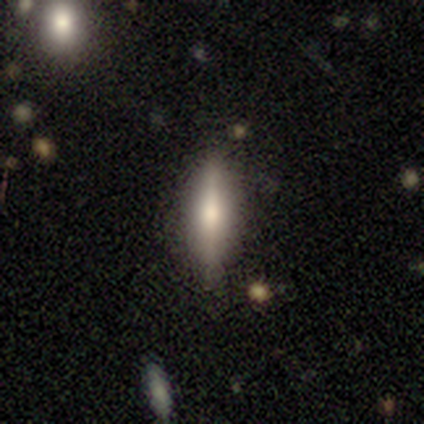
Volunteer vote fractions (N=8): smooth-or-featured: featured or disk: 75% | smooth: 25% | star or artifact: 0%
  disk-edge-on: yes: 83% | no: 17%
    edge-on-bulge: rounded: 80% | boxy: 20% | none: 0%
  merging: none: 100% | minor disturbance: 0% | major disturbance: 0% | merger: 0%